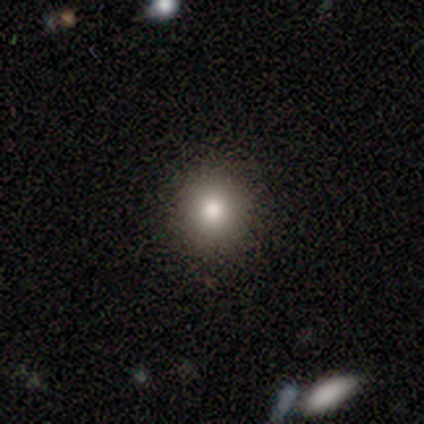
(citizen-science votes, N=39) A smooth galaxy with no disk features (82%) that is round (97%). Merging: none (91%).